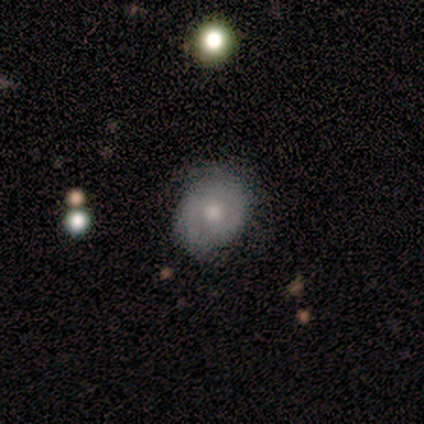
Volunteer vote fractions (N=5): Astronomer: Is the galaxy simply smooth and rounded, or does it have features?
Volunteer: smooth — 80%.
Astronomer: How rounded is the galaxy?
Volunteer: in between — 75%.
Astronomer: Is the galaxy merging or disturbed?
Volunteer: none — 60% (runner-up: minor disturbance, 40%).